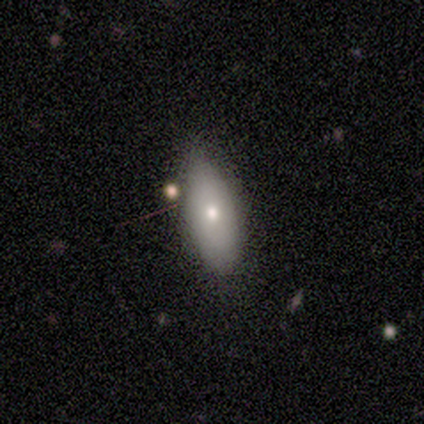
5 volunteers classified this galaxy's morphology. smooth_or_featured: smooth (p=0.80) [alt: featured or disk p=0.20]
how_rounded: in between (p=1.00)
merging: none (p=1.00)